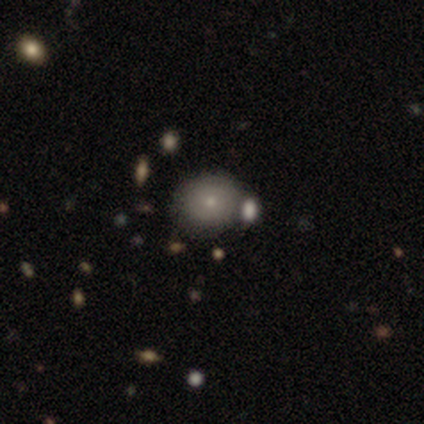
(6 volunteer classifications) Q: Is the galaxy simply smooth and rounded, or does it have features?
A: smooth — 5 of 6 (83%).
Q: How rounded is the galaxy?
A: round — 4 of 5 (80%).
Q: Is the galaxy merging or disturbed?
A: none — 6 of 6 (100%).